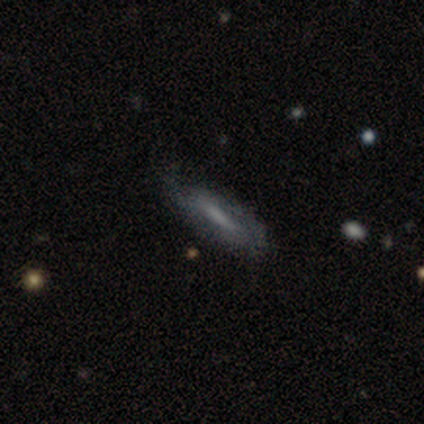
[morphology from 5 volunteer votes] Smooth or featured: featured or disk — 100%
Edge-on disk: no — 80% (yes — 20%)
Bar: strong — 100%
Spiral arms: yes — 75% (no — 25%)
Spiral winding: tight — 67% (medium — 33%)
Spiral arm count: 2 — 67% (1 — 33%)
Bulge size: none — 75% (moderate — 25%)
Merging: minor disturbance — 80% (major disturbance — 20%)